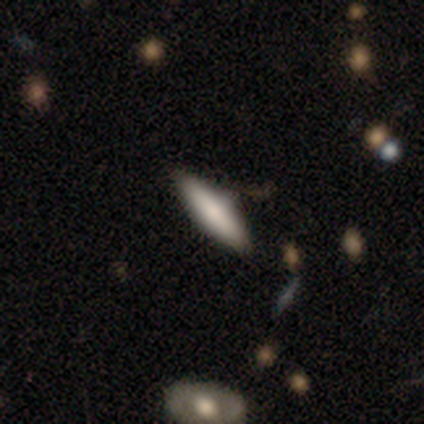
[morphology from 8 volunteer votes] This is possibly a smooth galaxy (50%). How rounded: likely cigar-shaped (75%). Merging: likely none (67%).